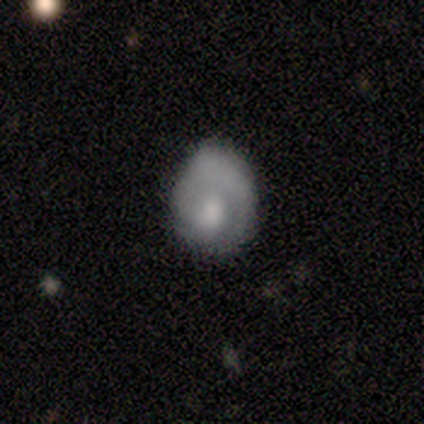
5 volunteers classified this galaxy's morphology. type=smooth (40%, tied with star or artifact); roundness=round (100%); merging=none (67%).